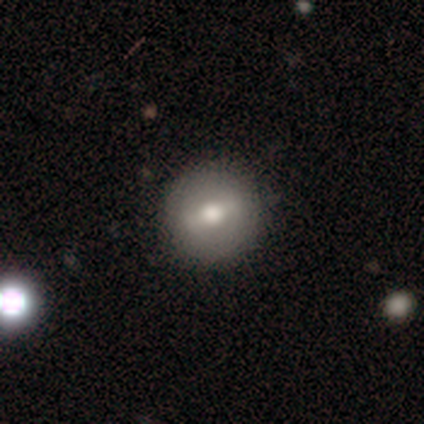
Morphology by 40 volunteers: Smooth or featured?
  - smooth: 62% *
  - featured or disk: 38%
  - star or artifact: 0%
How rounded?
  - round: 92% *
  - in between: 8%
  - cigar-shaped: 0%
Merging?
  - none: 65% *
  - minor disturbance: 5%
  - major disturbance: 2%
  - merger: 2%